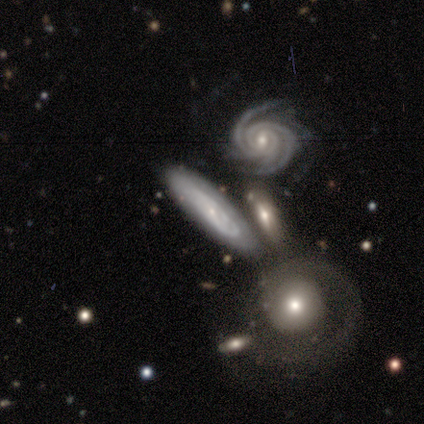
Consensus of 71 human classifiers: This appears to be a featured or disk galaxy (86%) with no bar (65%), tight (71%) spiral arms (86%) and a small central bulge (73%). Merging: none (62%).